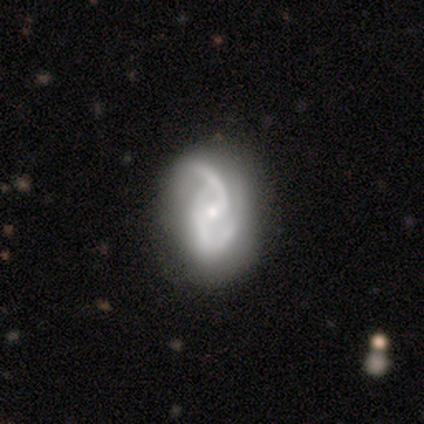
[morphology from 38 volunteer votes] featured or disk 87%, star or artifact 8%, smooth 5%. Down the decision tree: edge-on disk — no (100%); bar — no (42%); spiral arms — yes (97%); spiral arm count — 2 (88%); spiral winding — loose (50%); bulge size — small (58%); merging — none (63%).